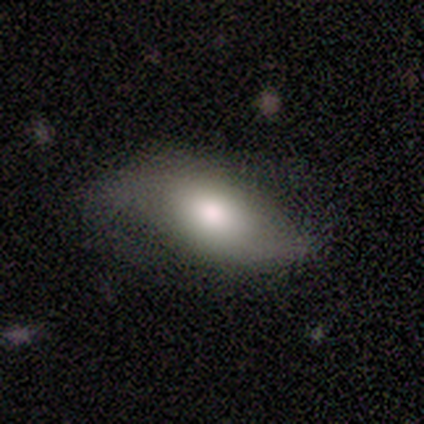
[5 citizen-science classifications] smooth 100%, featured or disk 0%, star or artifact 0%. Down the decision tree: how rounded — in between (100%); merging — none (60%).